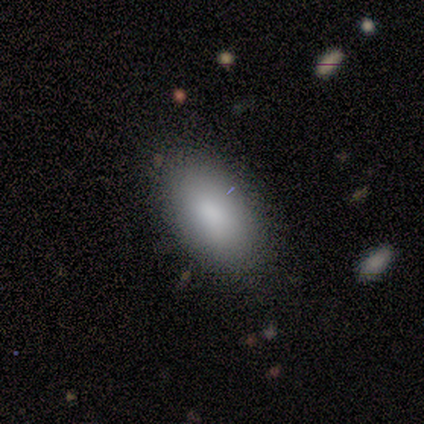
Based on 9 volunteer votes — Overall: smooth (89%). How rounded: in between (100%). Merging: none (89%).